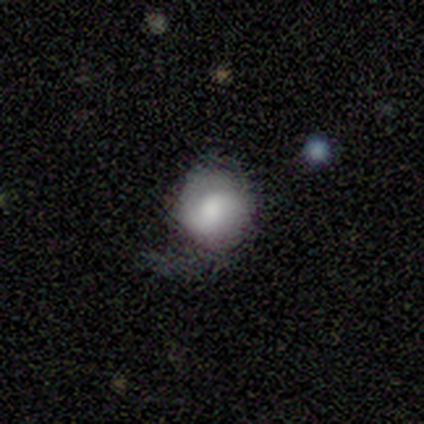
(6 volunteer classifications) This is likely a smooth galaxy (67%). How rounded: clearly round (100%). Merging: possibly major disturbance (50%).